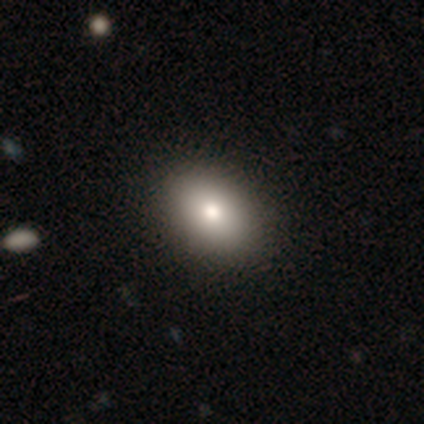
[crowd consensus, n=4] This appears to be a smooth galaxy with no disk features (50%, tied with star or artifact) that is in between round and cigar-shaped (100%). Merging: none (100%).